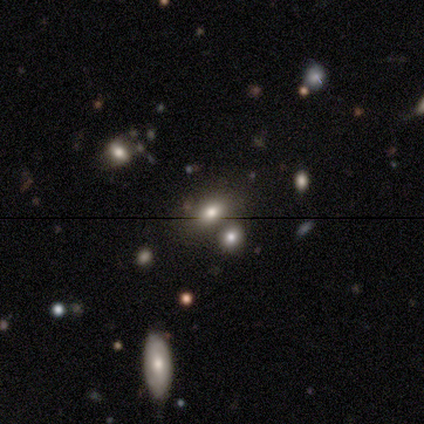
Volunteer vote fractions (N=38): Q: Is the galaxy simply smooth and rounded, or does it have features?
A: smooth — 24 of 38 (63%).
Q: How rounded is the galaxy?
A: in between — 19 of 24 (79%).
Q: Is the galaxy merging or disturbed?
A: merger — 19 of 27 (70%).